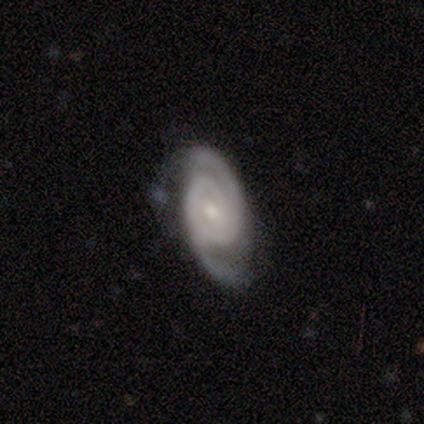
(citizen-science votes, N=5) Q: Smooth or featured?
A: featured or disk (60%); runner-up: smooth (40%)
Q: Edge-on disk?
A: no (100%)
Q: Bar?
A: strong (33%); tied with: weak (33%); no (33%)
Q: Spiral arms?
A: yes (100%)
Q: Spiral winding?
A: tight (100%)
Q: Spiral arm count?
A: 2 (67%); runner-up: can't tell (33%)
Q: Bulge size?
A: small (67%); runner-up: moderate (33%)
Q: Merging?
A: minor disturbance (40%); tied with: major disturbance (40%)